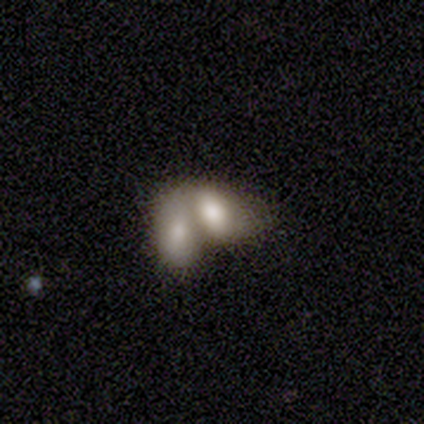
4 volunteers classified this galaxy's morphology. Volunteers were most divided on "smooth or featured": smooth: 50%, featured or disk: 25%, star or artifact: 25%. More confident: how rounded — in between (100%); merging — merger (100%).